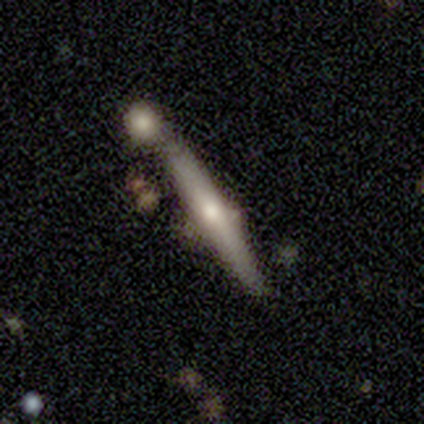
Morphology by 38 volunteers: Q: Smooth or featured?
A: featured or disk (66%); runner-up: smooth (34%)
Q: Edge-on disk?
A: yes (96%); runner-up: no (4%)
Q: Edge-on bulge?
A: rounded (79%); runner-up: none (21%)
Q: Merging?
A: none (68%); runner-up: merger (21%)